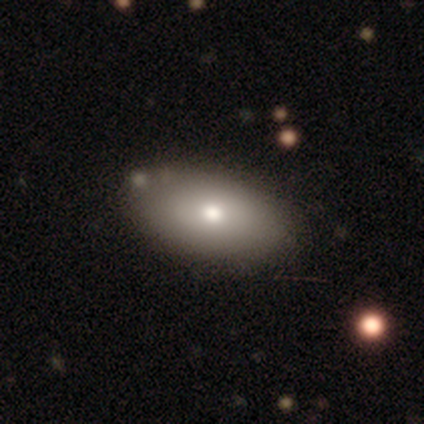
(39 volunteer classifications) This is likely a smooth galaxy (72%). How rounded: clearly in between (96%). Merging: clearly none (81%).